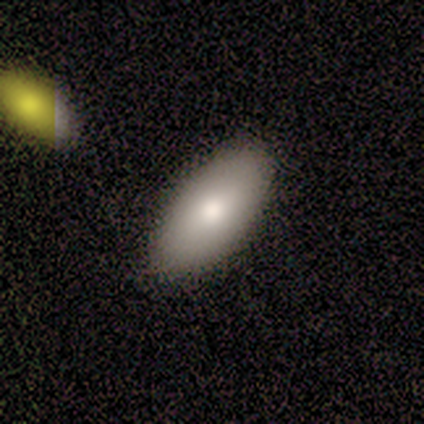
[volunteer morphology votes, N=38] smooth 84%, featured or disk 13%, star or artifact 3%. Down the decision tree: how rounded — in between (94%); merging — none (68%).